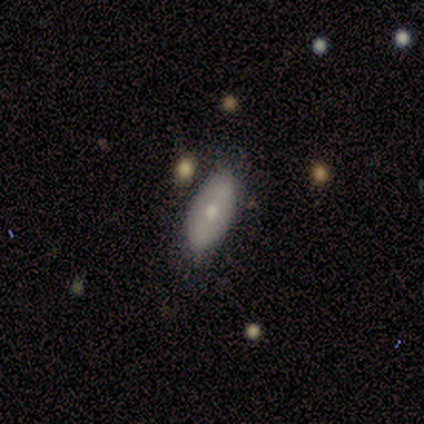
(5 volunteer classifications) Smooth or featured: featured or disk — 60% (smooth — 20%)
Edge-on disk: yes — 67% (no — 33%)
Edge-on bulge: rounded — 100%
Merging: none — 100%